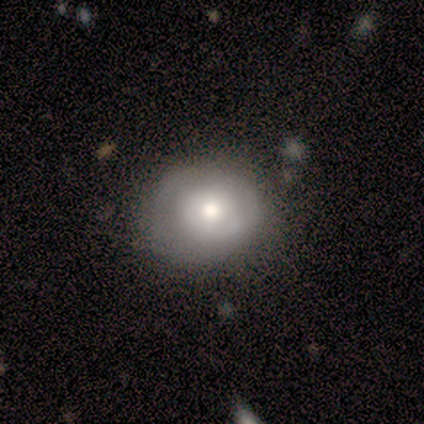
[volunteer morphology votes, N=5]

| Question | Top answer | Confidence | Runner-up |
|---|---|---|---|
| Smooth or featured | featured or disk | 80% | smooth (20%) |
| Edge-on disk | no | 100% | — |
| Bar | no | 100% | — |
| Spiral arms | no | 100% | — |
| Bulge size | large | 75% | moderate (25%) |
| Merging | none | 80% | major disturbance (20%) |